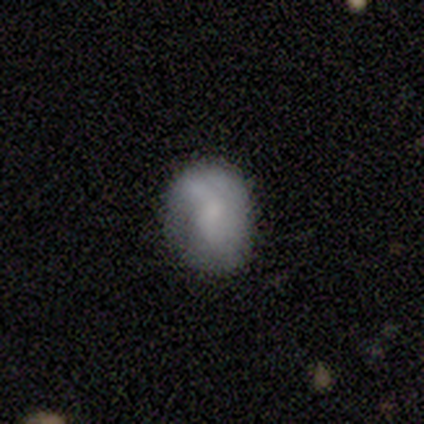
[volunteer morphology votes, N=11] Volunteers were most divided on "how rounded" (2-way tie): round: 50%, in between: 50%, cigar-shaped: 0%. More confident: smooth or featured — smooth (55%); merging — none (50%).